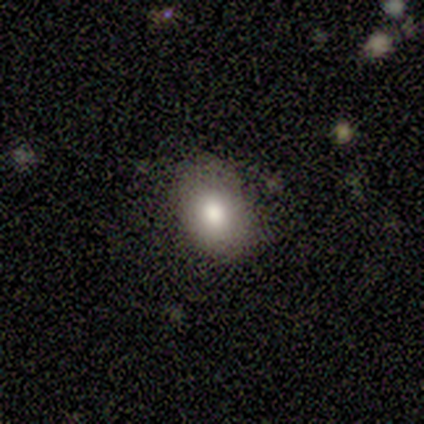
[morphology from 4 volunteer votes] smooth-or-featured: featured or disk: 50% | smooth: 25% | star or artifact: 25%
  disk-edge-on: no: 100% | yes: 0%
    bar: no: 100% | strong: 0% | weak: 0%
    has-spiral-arms: yes: 50% (tied) | no: 50% (tied)
      spiral-winding: loose: 100% | tight: 0% | medium: 0%
      spiral-arm-count: 1: 100% | 2: 0% | 3: 0% | 4: 0% | more than 4: 0% | can't tell: 0%
    bulge-size: moderate: 50% (tied) | small: 50% (tied) | dominant: 0% | large: 0% | none: 0%
  merging: none: 67% | major disturbance: 33% | minor disturbance: 0% | merger: 0%